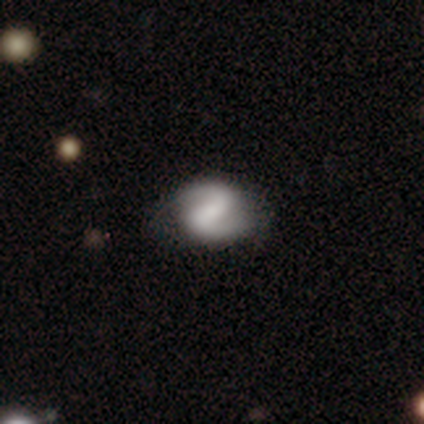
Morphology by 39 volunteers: A featured or disk galaxy (74%) with a strong bar (43%), 2 (96%) medium (44%) spiral arms (96%) and a small central bulge (32%, tied with none). Merging: none (78%).